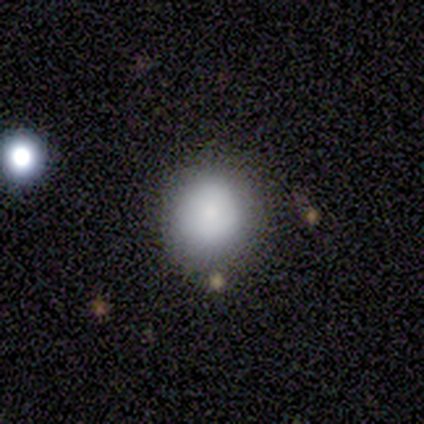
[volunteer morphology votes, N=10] Volunteers were most divided on "merging": none: 78%, minor disturbance: 22%, major disturbance: 0%, merger: 0%. More confident: smooth or featured — smooth (90%); how rounded — round (89%).